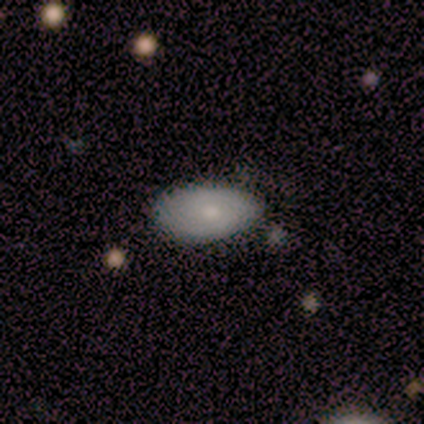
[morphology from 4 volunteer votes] Volunteers were most divided on "spiral arms": no: 67%, yes: 33%. More confident: edge-on disk — no (100%); bar — no (100%); merging — none (100%); smooth or featured — featured or disk (75%); bulge size — small (67%).